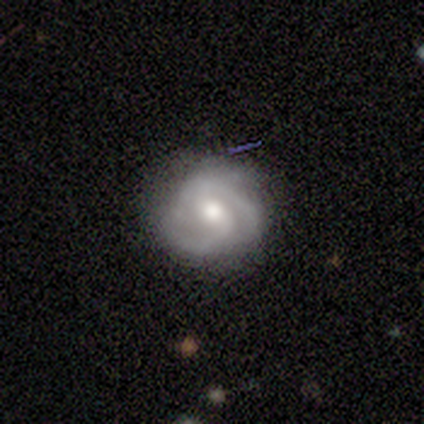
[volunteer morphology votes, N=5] smooth-or-featured: featured or disk: 100% | smooth: 0% | star or artifact: 0%
  disk-edge-on: no: 100% | yes: 0%
    bar: strong: 40% (tied) | weak: 40% (tied) | no: 20%
    has-spiral-arms: yes: 100% | no: 0%
      spiral-winding: tight: 80% | medium: 20% | loose: 0%
      spiral-arm-count: 2: 60% | 3: 20% | can't tell: 20% | 1: 0% | 4: 0% | more than 4: 0%
    bulge-size: moderate: 80% | large: 20% | dominant: 0% | small: 0% | none: 0%
  merging: minor disturbance: 60% | none: 40% | major disturbance: 0% | merger: 0%